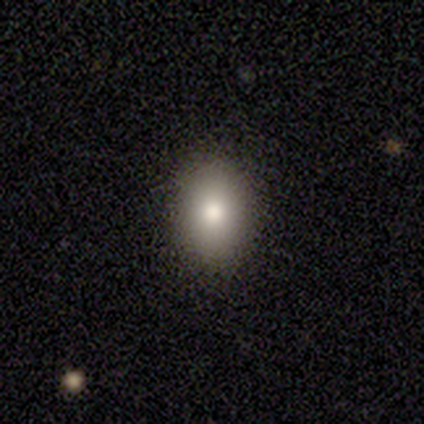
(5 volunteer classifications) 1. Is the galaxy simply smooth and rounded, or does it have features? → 80% smooth, 20% star or artifact, 0% featured or disk.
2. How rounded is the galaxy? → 75% in between, 25% round, 0% cigar-shaped.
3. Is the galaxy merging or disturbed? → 100% none, 0% minor disturbance, 0% major disturbance, 0% merger.